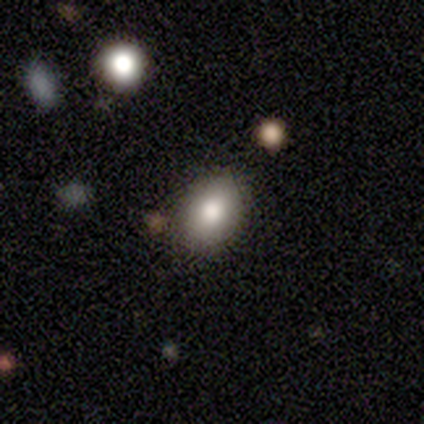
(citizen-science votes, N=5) Q: Smooth or featured?
A: smooth (80%); runner-up: featured or disk (20%)
Q: How rounded?
A: in between (100%)
Q: Merging?
A: none (80%); runner-up: minor disturbance (20%)